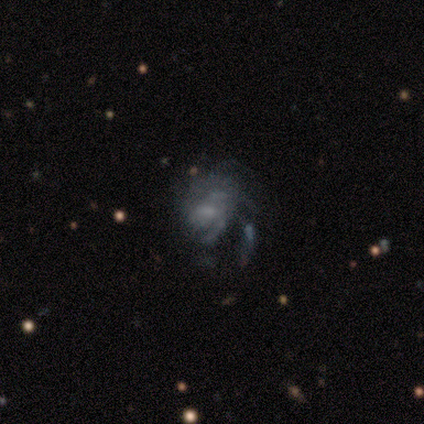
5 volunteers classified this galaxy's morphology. Smooth or featured? 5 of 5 (100%) said featured or disk. Edge-on disk? 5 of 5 (100%) said no. Bar? 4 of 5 (80%) said no. Spiral arms? 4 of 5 (80%) said yes. Spiral winding? 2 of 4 (50%, tied with medium) said tight. Spiral arm count? 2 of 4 (50%) said can't tell. Bulge size? 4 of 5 (80%) said none. Merging? 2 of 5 (40%) said none.